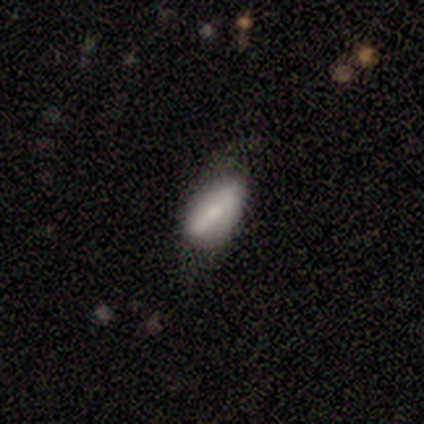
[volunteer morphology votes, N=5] smooth-or-featured: featured or disk: 80% | smooth: 20% | star or artifact: 0%
  disk-edge-on: no: 100% | yes: 0%
    bar: strong: 50% (tied) | no: 50% (tied) | weak: 0%
    has-spiral-arms: no: 75% | yes: 25%
    bulge-size: moderate: 50% (tied) | small: 50% (tied) | dominant: 0% | large: 0% | none: 0%
  merging: none: 80% | minor disturbance: 20% | major disturbance: 0% | merger: 0%